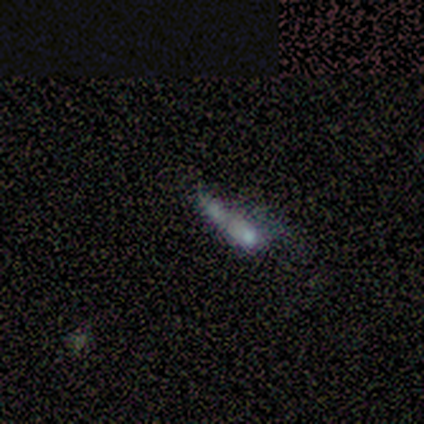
Overall: smooth (60%; featured or disk 20%). How rounded: cigar-shaped (100%). Merging: minor disturbance (50%, tied with merger).